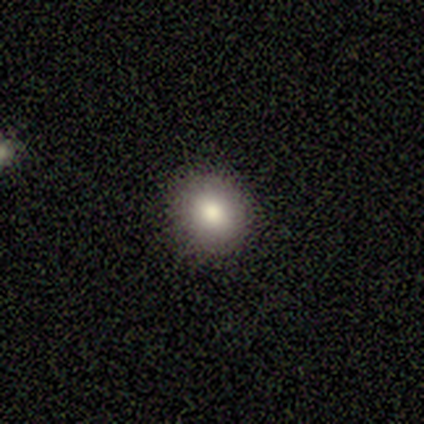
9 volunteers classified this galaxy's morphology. smooth-or-featured: smooth: 100% | featured or disk: 0% | star or artifact: 0%
  how-rounded: round: 67% | in between: 33% | cigar-shaped: 0%
  merging: none: 100% | minor disturbance: 0% | major disturbance: 0% | merger: 0%